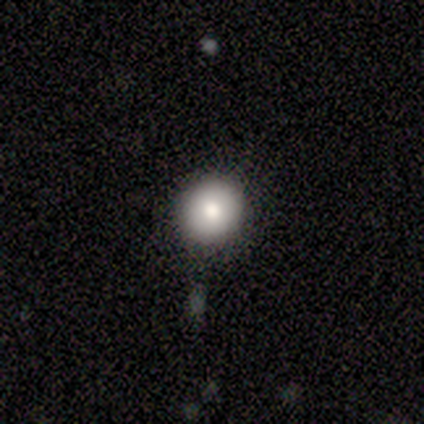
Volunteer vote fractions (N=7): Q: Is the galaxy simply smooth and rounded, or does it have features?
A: smooth — 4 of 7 (57%).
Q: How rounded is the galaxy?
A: round — 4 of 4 (100%).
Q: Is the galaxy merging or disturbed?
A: none — 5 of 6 (83%).